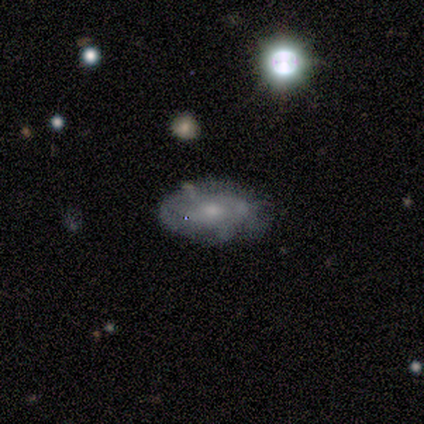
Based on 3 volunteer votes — smooth-or-featured: featured or disk: 67% | smooth: 33% | star or artifact: 0%
  disk-edge-on: no: 100% | yes: 0%
    bar: no: 100% | strong: 0% | weak: 0%
    has-spiral-arms: yes: 100% | no: 0%
      spiral-winding: tight: 50% (tied) | medium: 50% (tied) | loose: 0%
      spiral-arm-count: can't tell: 100% | 1: 0% | 2: 0% | 3: 0% | 4: 0% | more than 4: 0%
    bulge-size: moderate: 50% (tied) | small: 50% (tied) | dominant: 0% | large: 0% | none: 0%
  merging: none: 67% | minor disturbance: 33% | major disturbance: 0% | merger: 0%